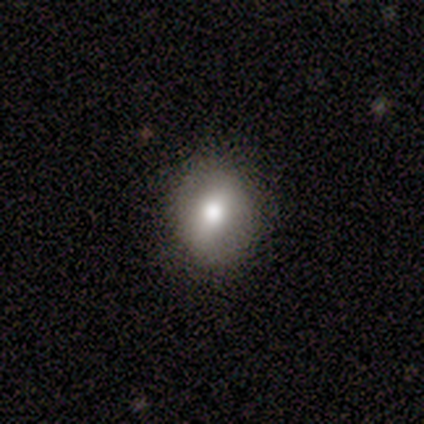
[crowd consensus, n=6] Volunteers were most divided on "how rounded": in between: 60%, round: 40%, cigar-shaped: 0%. More confident: merging — none (100%); smooth or featured — smooth (83%).